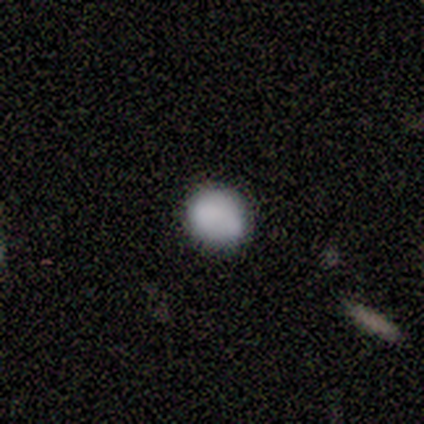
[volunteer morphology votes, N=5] This appears to be a smooth galaxy with no disk features (80%) that is round (75%). Merging: none (80%).